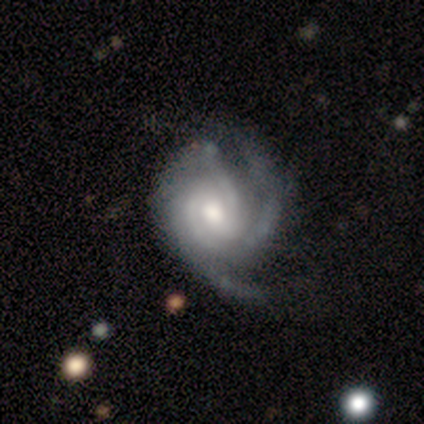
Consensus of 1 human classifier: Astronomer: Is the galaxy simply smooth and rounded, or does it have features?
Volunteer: featured or disk — 100%.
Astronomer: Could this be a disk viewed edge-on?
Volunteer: no — 100%.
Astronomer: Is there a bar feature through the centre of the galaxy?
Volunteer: no — 100%.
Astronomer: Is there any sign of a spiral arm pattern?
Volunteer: yes — 100%.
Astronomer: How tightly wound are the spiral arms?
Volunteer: tight — 100%.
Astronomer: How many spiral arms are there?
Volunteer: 3 — 100%.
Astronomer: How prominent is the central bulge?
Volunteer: moderate — 100%.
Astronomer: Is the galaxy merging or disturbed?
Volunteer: minor disturbance — 100%.